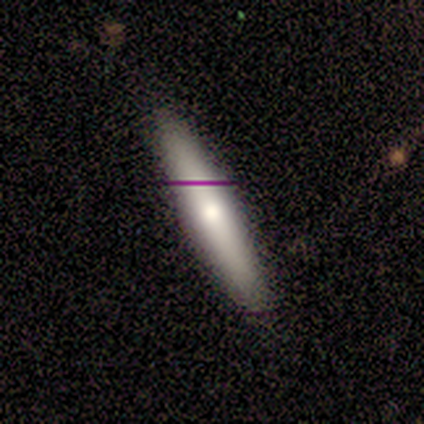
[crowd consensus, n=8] A smooth galaxy with no disk features (62%) that is cigar-shaped (100%). Merging: none (62%).